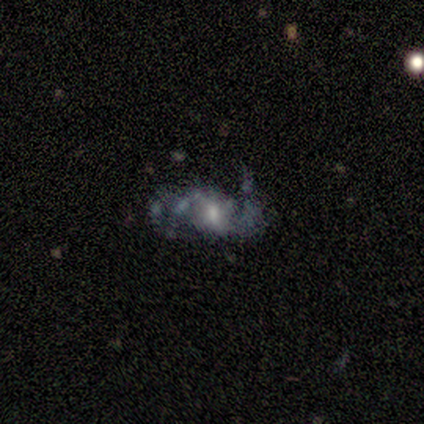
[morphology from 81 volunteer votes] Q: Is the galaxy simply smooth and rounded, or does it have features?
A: featured or disk — 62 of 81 (77%).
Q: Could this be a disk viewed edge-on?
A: no — 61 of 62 (98%).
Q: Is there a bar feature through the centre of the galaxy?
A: weak — 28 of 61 (46%).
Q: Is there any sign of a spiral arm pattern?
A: yes — 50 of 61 (82%).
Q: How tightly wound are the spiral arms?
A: loose — 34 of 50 (68%).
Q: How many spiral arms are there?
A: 2 — 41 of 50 (82%).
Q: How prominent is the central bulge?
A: moderate — 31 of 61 (51%).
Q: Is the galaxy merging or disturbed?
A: none — 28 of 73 (38%).